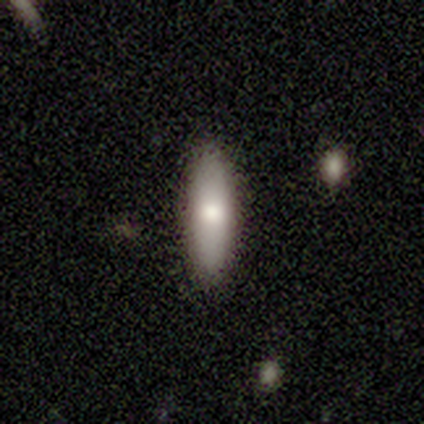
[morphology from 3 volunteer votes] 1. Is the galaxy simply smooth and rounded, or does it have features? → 100% smooth, 0% featured or disk, 0% star or artifact.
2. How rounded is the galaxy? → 67% cigar-shaped, 33% in between, 0% round.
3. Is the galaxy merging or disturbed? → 100% none, 0% minor disturbance, 0% major disturbance, 0% merger.